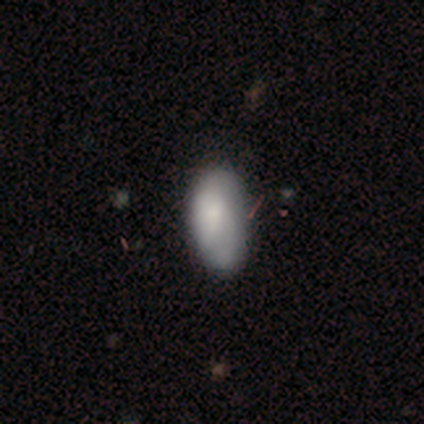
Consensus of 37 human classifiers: A smooth galaxy with no disk features (78%) that is in between round and cigar-shaped (100%). Merging: none (38%).